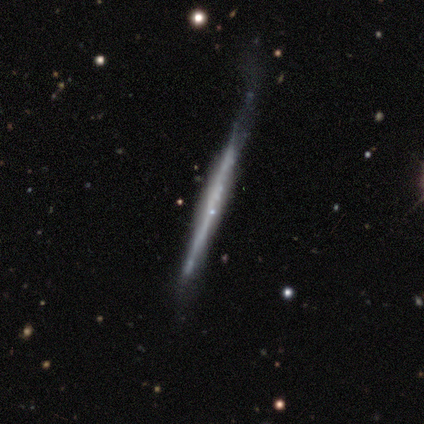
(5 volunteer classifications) Overall: featured or disk (60%; smooth 40%). Edge-on disk: yes (67%; no 33%). Edge-on bulge: none (50%, tied with rounded). Merging: none (80%).